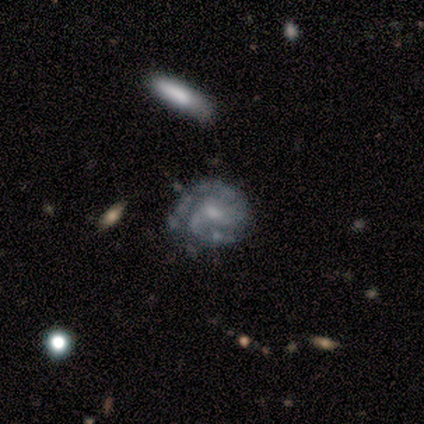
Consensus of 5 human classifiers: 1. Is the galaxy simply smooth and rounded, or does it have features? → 100% featured or disk, 0% smooth, 0% star or artifact.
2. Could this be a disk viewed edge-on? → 100% no, 0% yes.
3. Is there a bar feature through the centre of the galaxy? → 80% no, 20% weak, 0% strong.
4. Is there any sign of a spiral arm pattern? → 100% yes, 0% no.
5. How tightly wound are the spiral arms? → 100% tight, 0% medium, 0% loose.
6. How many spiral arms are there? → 80% 2, 20% 3, 0% 1, 0% 4, 0% more than 4, 0% can't tell.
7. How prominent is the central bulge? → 60% moderate, 40% small, 0% dominant, 0% large, 0% none.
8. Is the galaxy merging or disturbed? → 100% none, 0% minor disturbance, 0% major disturbance, 0% merger.